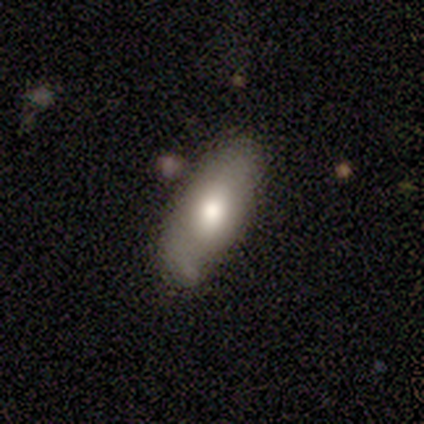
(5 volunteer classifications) This appears to be a smooth galaxy with no disk features (80%) that is in between round and cigar-shaped (100%). Merging: minor disturbance (60%).